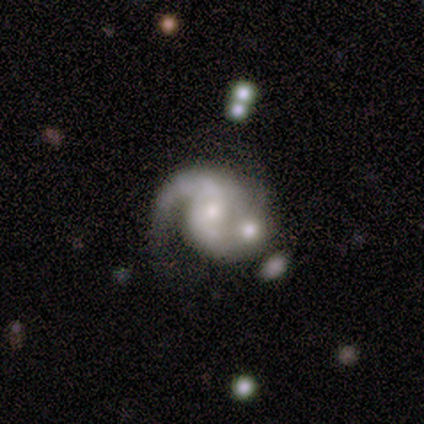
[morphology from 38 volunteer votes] featured or disk 92%, smooth 5%, star or artifact 3%. Down the decision tree: edge-on disk — no (100%); bar — no (66%); spiral arms — yes (100%); spiral arm count — 2 (83%); spiral winding — medium (46%); bulge size — small (49%); merging — none (43%).